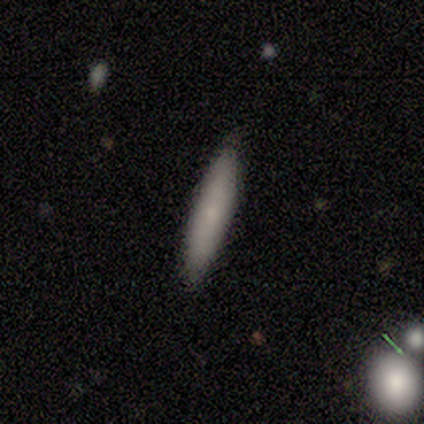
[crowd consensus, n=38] Smooth or featured?
  - smooth: 63% *
  - featured or disk: 29%
  - star or artifact: 8%
How rounded?
  - cigar-shaped: 88% *
  - in between: 12%
  - round: 0%
Merging?
  - none: 86% *
  - minor disturbance: 9%
  - major disturbance: 3%
  - merger: 3%